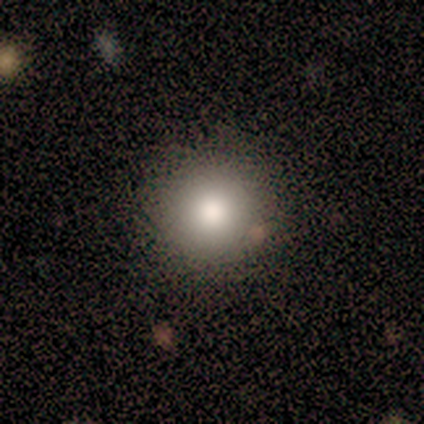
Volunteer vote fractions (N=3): A smooth galaxy with no disk features (100%) that is round (100%).

Vote fractions:
- Smooth or featured? smooth: 100% / featured or disk: 0% / star or artifact: 0%
- How rounded? round: 100% / in between: 0% / cigar-shaped: 0%
- Merging? none: 100% / minor disturbance: 0% / major disturbance: 0% / merger: 0%